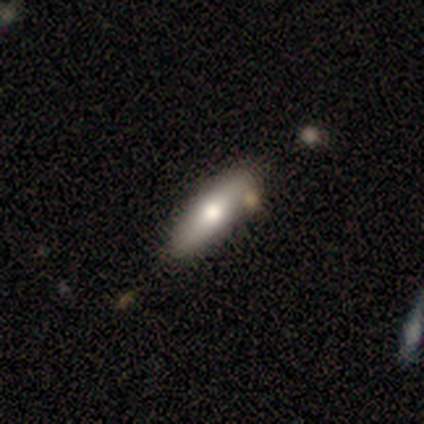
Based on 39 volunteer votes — This appears to be a smooth galaxy with no disk features (69%) that is cigar-shaped (52%). Merging: none (58%).